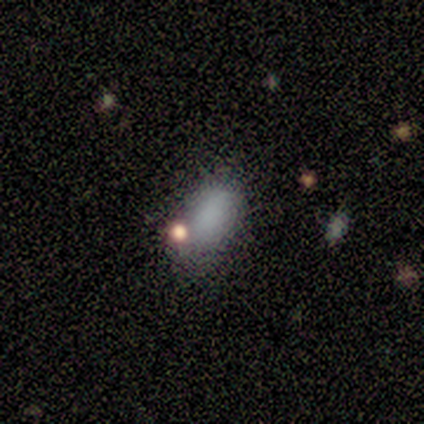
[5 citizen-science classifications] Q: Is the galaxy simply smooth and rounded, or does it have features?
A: smooth — 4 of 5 (80%).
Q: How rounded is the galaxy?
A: in between — 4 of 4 (100%).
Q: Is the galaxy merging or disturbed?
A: none — 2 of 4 (50%, tied with minor disturbance).